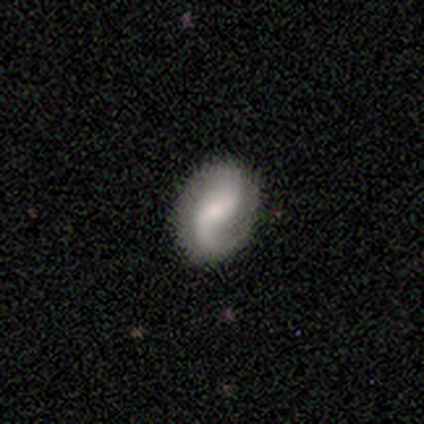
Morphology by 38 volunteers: smooth_or_featured: featured or disk (p=0.84) [alt: smooth p=0.13]
disk_edge_on: no (p=0.97) [alt: yes p=0.03]
bar: weak (p=0.58) [alt: no p=0.35]
has_spiral_arms: yes (p=0.94) [alt: no p=0.06]
spiral_winding: loose (p=0.66) [alt: medium p=0.24]
spiral_arm_count: 2 (p=0.79) [alt: 1 p=0.21]
bulge_size: moderate (p=0.39) [alt: small p=0.35]
merging: none (p=0.92) [alt: minor disturbance p=0.05]